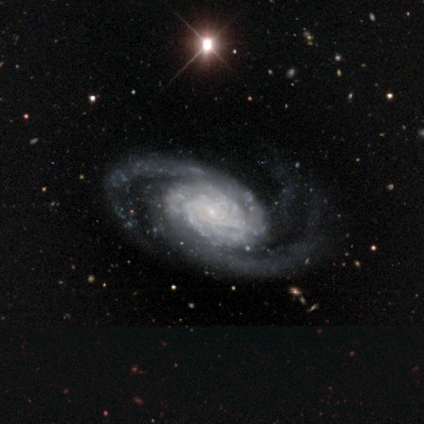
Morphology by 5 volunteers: A featured or disk galaxy (100%) with no bar (80%), 2 (80%) medium (60%) spiral arms (100%) and a small central bulge (60%). Merging: none (80%).